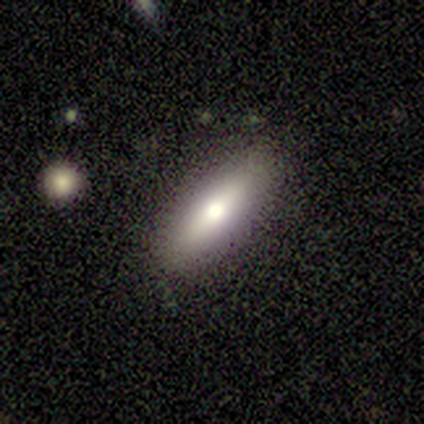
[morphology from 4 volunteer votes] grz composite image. It shows a smooth galaxy with no disk features (50%, tied with featured or disk) that is in between round and cigar-shaped (100%). Merging: none (75%).